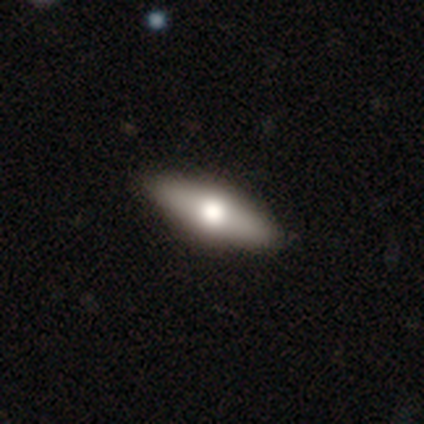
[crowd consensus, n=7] Smooth or featured? featured or disk (71%)
Edge-on disk? yes (100%)
Edge-on bulge? rounded (100%)
Merging? none (100%)